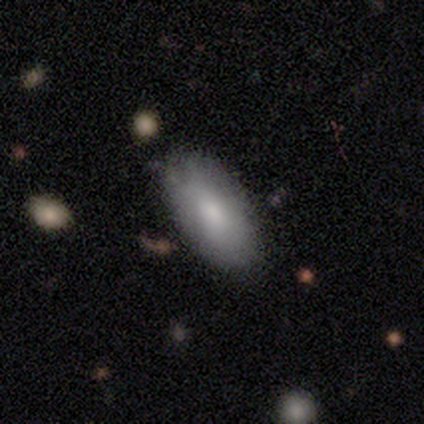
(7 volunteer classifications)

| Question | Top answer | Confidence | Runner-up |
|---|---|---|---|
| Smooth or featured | smooth | 86% | star or artifact (14%) |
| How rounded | in between | 100% | — |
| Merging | none | 67% | minor disturbance (33%) |